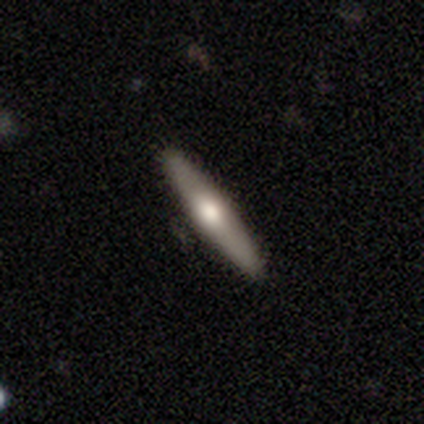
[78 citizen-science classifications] Smooth or featured? smooth (49%, tied with featured or disk)
How rounded? cigar-shaped (89%)
Merging? none (46%)